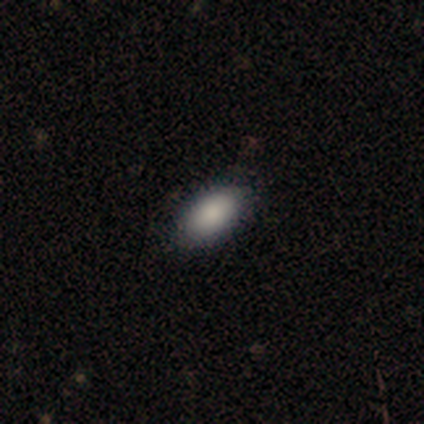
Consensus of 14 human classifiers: Smooth or featured? smooth (71%)
How rounded? in between (100%)
Merging? none (92%)